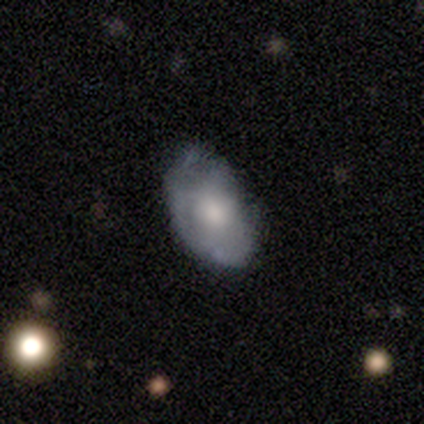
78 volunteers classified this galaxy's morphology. featured or disk 56%, smooth 44%, star or artifact 0%. Down the decision tree: edge-on disk — no (95%); bar — no (90%); spiral arms — no (69%); bulge size — moderate (62%); merging — none (27%).